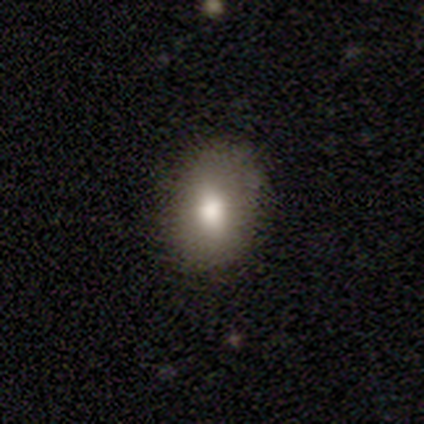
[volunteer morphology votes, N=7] Smooth or featured? smooth (86%)
How rounded? in between (67%)
Merging? none (100%)